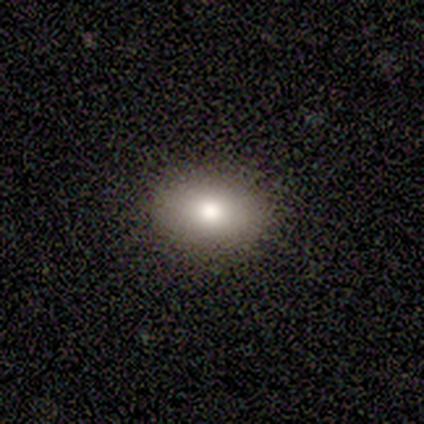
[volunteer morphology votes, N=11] This appears to be a smooth galaxy with no disk features (73%) that is in between round and cigar-shaped (88%). Merging: none (100%).